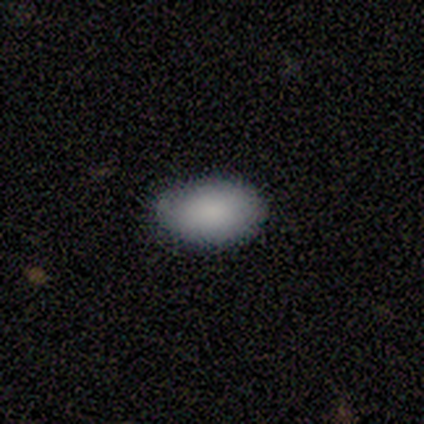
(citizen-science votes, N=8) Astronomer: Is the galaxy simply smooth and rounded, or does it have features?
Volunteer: smooth — 100%.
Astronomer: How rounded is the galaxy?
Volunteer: in between — 100%.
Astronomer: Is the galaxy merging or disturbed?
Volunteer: none — 75%.